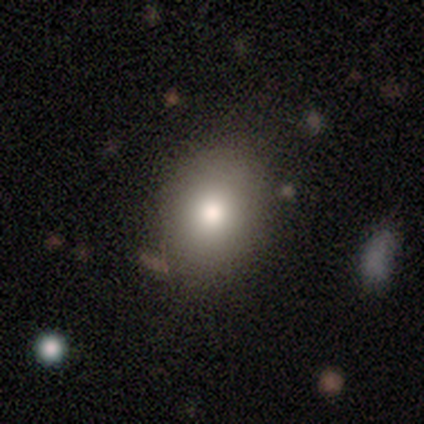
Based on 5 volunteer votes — Morphology: type=smooth (100%); roundness=in between (80%); merging=none (100%).